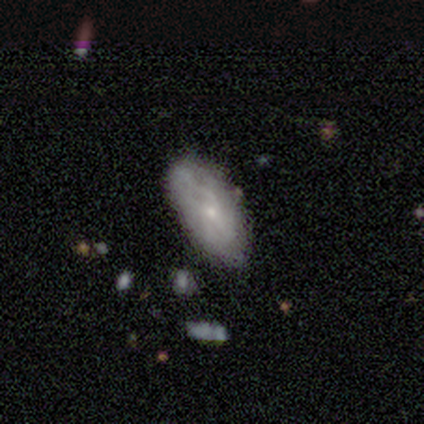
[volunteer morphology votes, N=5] This appears to be a featured or disk galaxy (60%) with no bar (67%), tight (50%, tied with medium) spiral arms (67%) and a small central bulge (100%). Merging: none (100%).